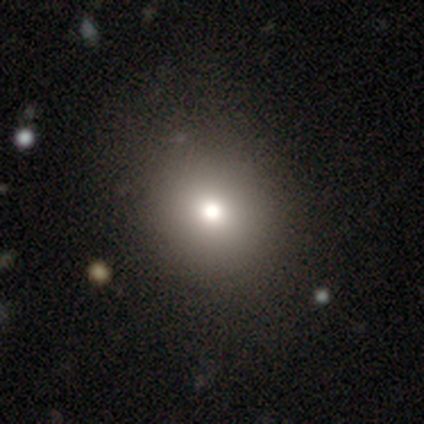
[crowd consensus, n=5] smooth-or-featured: smooth: 80% | star or artifact: 20% | featured or disk: 0%
  how-rounded: round: 50% (tied) | in between: 50% (tied) | cigar-shaped: 0%
  merging: none: 100% | minor disturbance: 0% | major disturbance: 0% | merger: 0%